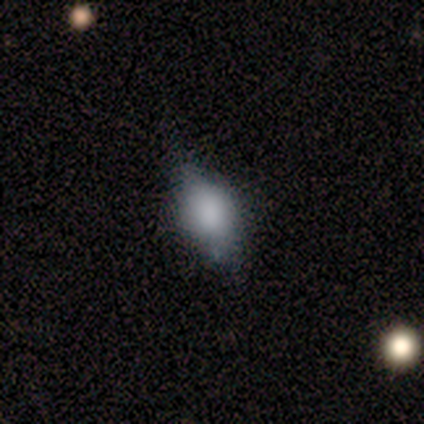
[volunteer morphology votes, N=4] smooth-or-featured: smooth: 75% | star or artifact: 25% | featured or disk: 0%
  how-rounded: in between: 100% | round: 0% | cigar-shaped: 0%
  merging: none: 33% (tied) | minor disturbance: 33% (tied) | major disturbance: 33% (tied) | merger: 0%